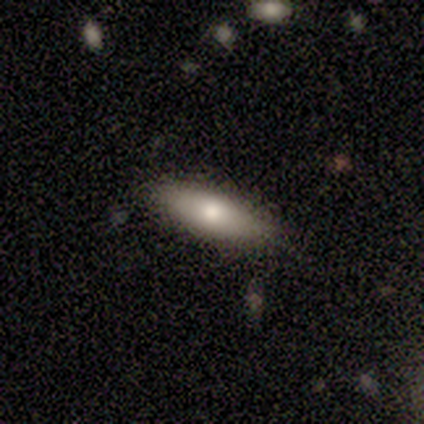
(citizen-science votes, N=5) Q: Smooth or featured?
A: smooth (100%)
Q: How rounded?
A: in between (80%); runner-up: cigar-shaped (20%)
Q: Merging?
A: none (100%)